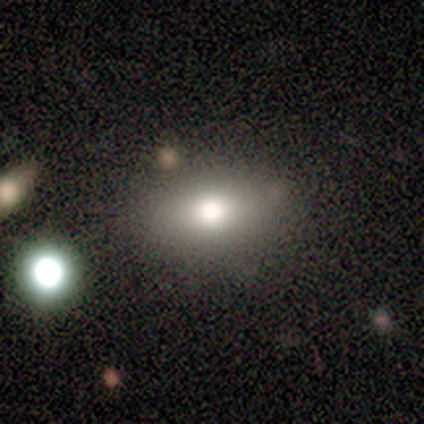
This appears to be a smooth galaxy with no disk features (70%) that is in between round and cigar-shaped (71%). Merging: none (100%).